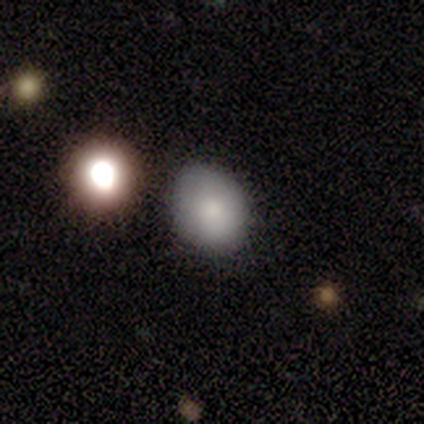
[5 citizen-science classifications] smooth 100%, featured or disk 0%, star or artifact 0%. Down the decision tree: how rounded — round (60%); merging — none (80%).